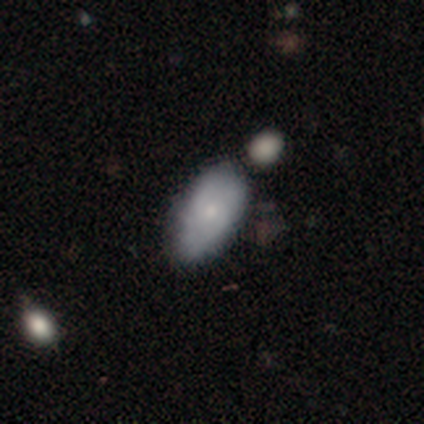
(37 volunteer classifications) Morphology: type=smooth (68%); roundness=in between (96%); merging=none (50%).